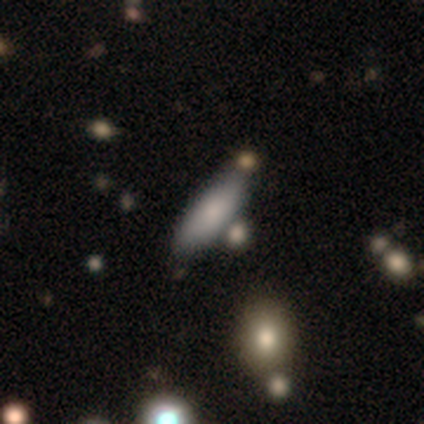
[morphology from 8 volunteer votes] Q: Smooth or featured?
A: smooth (75%); runner-up: featured or disk (25%)
Q: How rounded?
A: in between (50%); tied with: cigar-shaped (50%)
Q: Merging?
A: none (62%); runner-up: minor disturbance (38%)